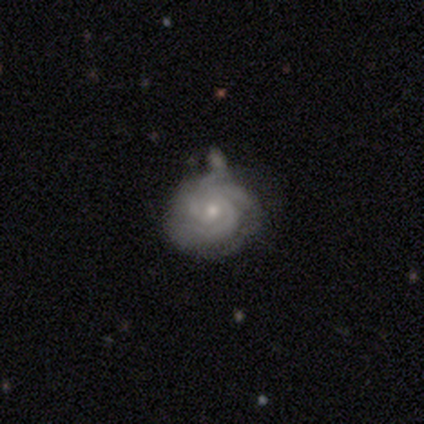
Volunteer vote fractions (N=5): A featured or disk galaxy (100%) with no bar (60%), tight (100%) spiral arms (100%) and a small central bulge (60%).

Vote fractions:
- Smooth or featured? featured or disk: 100% / smooth: 0% / star or artifact: 0%
- Edge-on disk? no: 100% / yes: 0%
- Bar? no: 60% / weak: 40% / strong: 0%
- Spiral arms? yes: 100% / no: 0%
- Spiral winding? tight: 100% / medium: 0% / loose: 0%
- Spiral arm count? can't tell: 60% / 3: 20% / more than 4: 20% / 1: 0% / 2: 0% / 4: 0%
- Bulge size? small: 60% / moderate: 40% / dominant: 0% / large: 0% / none: 0%
- Merging? minor disturbance: 40% / none: 20% / major disturbance: 20% / merger: 20%